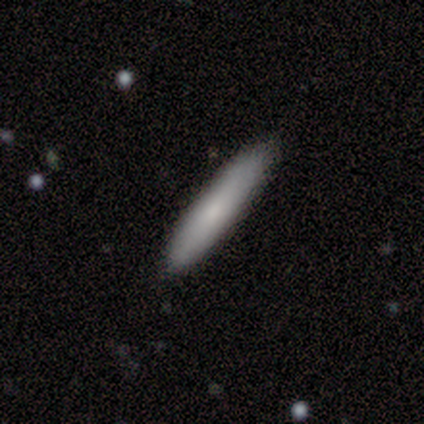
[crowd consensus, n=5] Smooth or featured? 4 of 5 (80%) said smooth. How rounded? 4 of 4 (100%) said cigar-shaped. Merging? 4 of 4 (100%) said none.